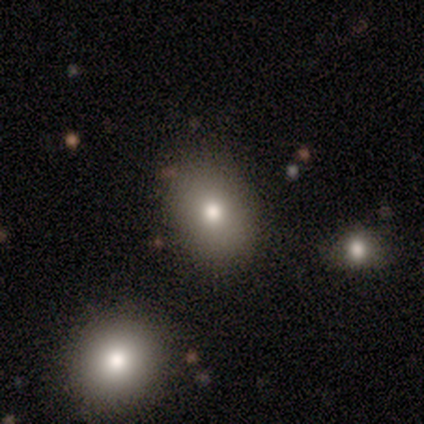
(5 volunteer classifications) Q: Smooth or featured?
A: smooth (100%)
Q: How rounded?
A: round (60%); runner-up: in between (40%)
Q: Merging?
A: none (100%)